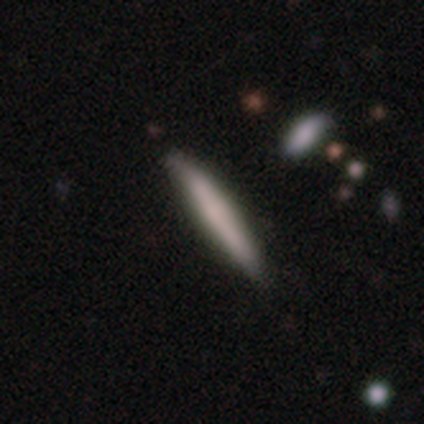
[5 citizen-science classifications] Morphology: type=smooth (60%); roundness=cigar-shaped (100%); merging=none (100%).